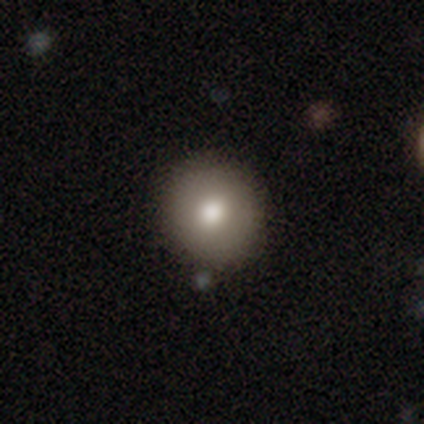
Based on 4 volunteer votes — Smooth or featured? 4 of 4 (100%) said smooth. How rounded? 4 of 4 (100%) said round. Merging? 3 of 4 (75%) said none.